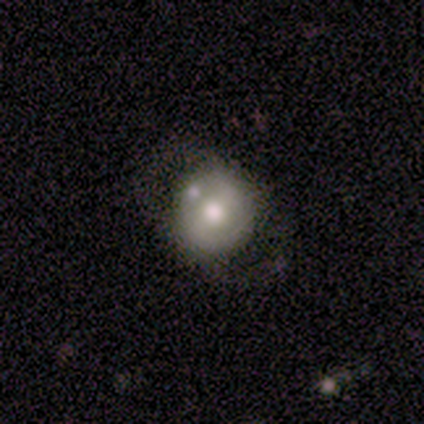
A smooth galaxy with no disk features (60%) that is round (100%).

Vote fractions:
- Smooth or featured? smooth: 60% / featured or disk: 40% / star or artifact: 0%
- How rounded? round: 100% / in between: 0% / cigar-shaped: 0%
- Merging? none: 100% / minor disturbance: 0% / major disturbance: 0% / merger: 0%